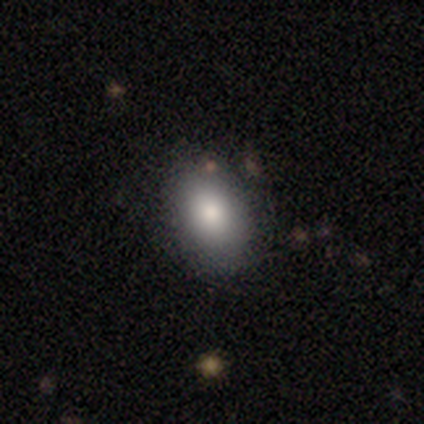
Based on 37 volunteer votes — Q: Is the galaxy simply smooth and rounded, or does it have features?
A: smooth — 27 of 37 (73%).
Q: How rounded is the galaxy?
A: in between — 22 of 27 (81%).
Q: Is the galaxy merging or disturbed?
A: none — 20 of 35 (57%).